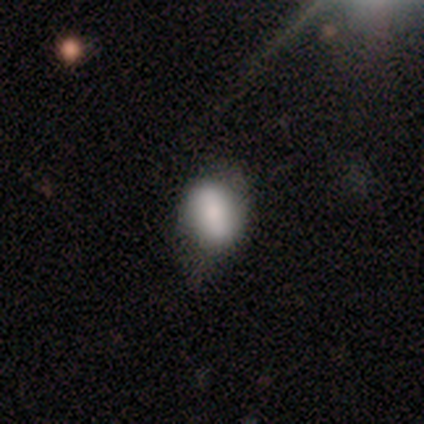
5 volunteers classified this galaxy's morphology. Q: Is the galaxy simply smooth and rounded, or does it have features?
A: smooth — 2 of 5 (40%, tied with featured or disk).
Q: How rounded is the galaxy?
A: in between — 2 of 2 (100%).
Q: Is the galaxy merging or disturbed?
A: minor disturbance — 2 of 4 (50%).